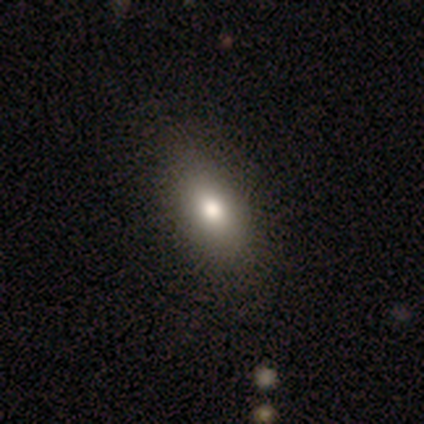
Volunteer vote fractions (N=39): Volunteers were most divided on "how rounded": in between: 80%, round: 11%, cigar-shaped: 9%. More confident: smooth or featured — smooth (90%); merging — none (89%).